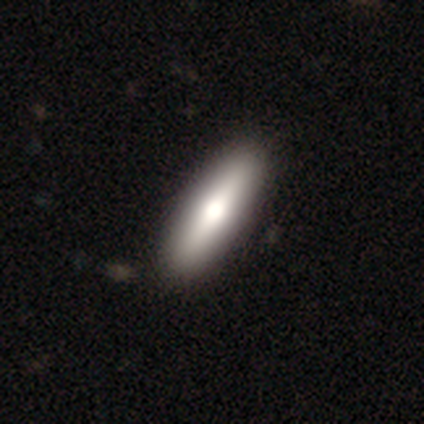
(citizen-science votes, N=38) Q: Smooth or featured?
A: smooth (68%); runner-up: featured or disk (29%)
Q: How rounded?
A: cigar-shaped (58%); runner-up: in between (42%)
Q: Merging?
A: none (81%); runner-up: minor disturbance (3%)